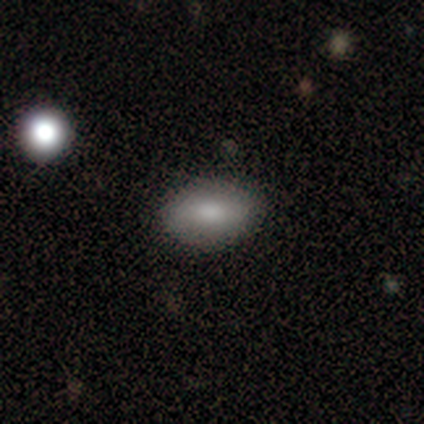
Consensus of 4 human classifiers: Q: Smooth or featured?
A: smooth (100%)
Q: How rounded?
A: in between (75%); runner-up: round (25%)
Q: Merging?
A: none (100%)